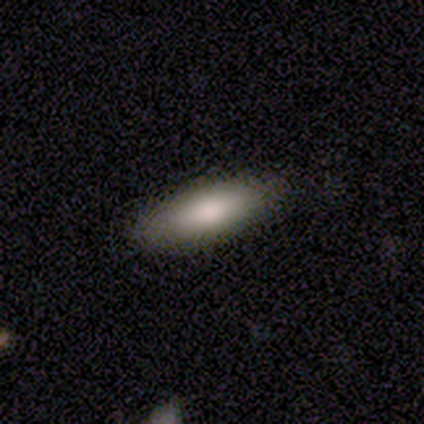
This appears to be a smooth galaxy with no disk features (87%) that is in between round and cigar-shaped (71%). Merging: none (92%).